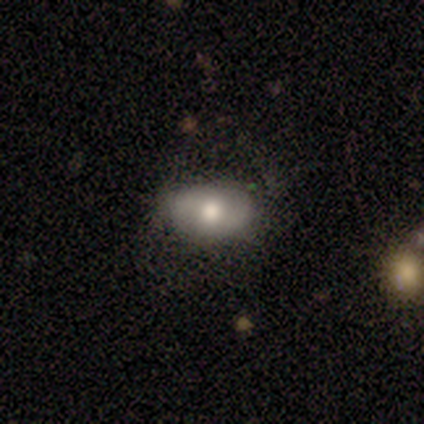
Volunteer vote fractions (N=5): Volunteers were most divided on "smooth or featured" (2-way tie): featured or disk: 40%, star or artifact: 40%, smooth: 20%; "bar" (2-way tie): strong: 50%, weak: 50%, no: 0%; "spiral winding" (2-way tie): medium: 50%, loose: 50%, tight: 0%; "merging" (3-way tie): none: 33%, minor disturbance: 33%, major disturbance: 33%, merger: 0%. More confident: edge-on disk — no (100%); spiral arms — yes (100%); spiral arm count — 2 (100%); bulge size — moderate (100%).